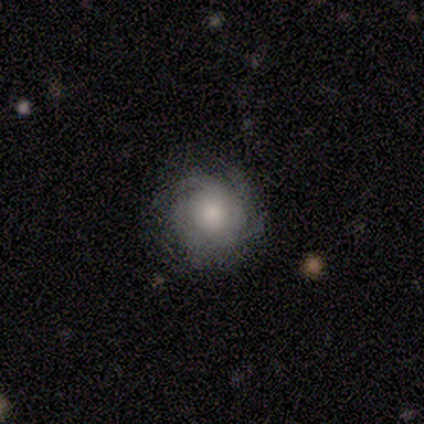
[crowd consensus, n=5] A featured or disk galaxy (80%) with no bar (100%), tight (75%) spiral arms (100%) and a moderate central bulge (50%). Merging: none (100%).